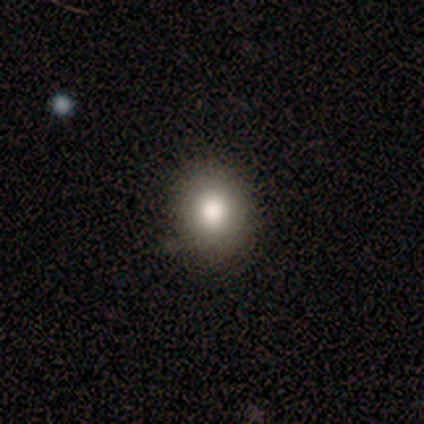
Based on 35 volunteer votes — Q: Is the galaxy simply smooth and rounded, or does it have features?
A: smooth — 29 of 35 (83%).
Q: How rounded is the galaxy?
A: round — 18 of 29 (62%).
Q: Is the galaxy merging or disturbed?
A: none — 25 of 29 (86%).